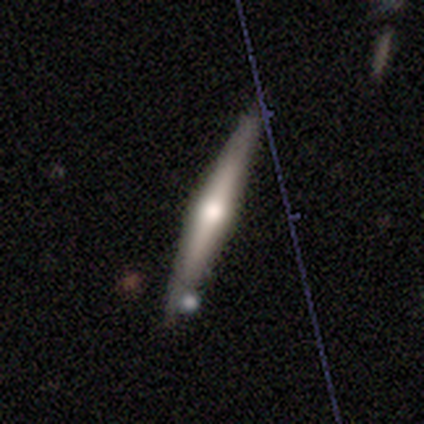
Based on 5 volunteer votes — Smooth or featured?
  - featured or disk: 80% *
  - smooth: 20%
  - star or artifact: 0%
Edge-on disk?
  - yes: 100% *
  - no: 0%
Edge-on bulge?
  - rounded: 75% *
  - none: 25%
  - boxy: 0%
Merging?
  - none: 80% *
  - minor disturbance: 20%
  - major disturbance: 0%
  - merger: 0%